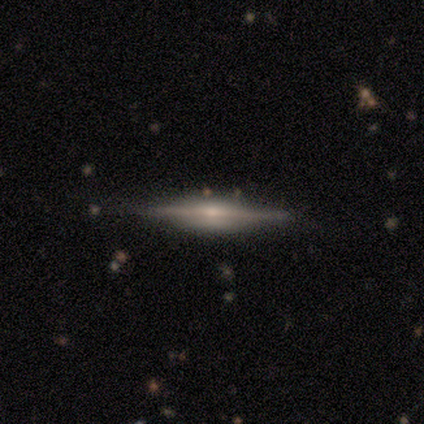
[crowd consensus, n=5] Smooth or featured? 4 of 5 (80%) said featured or disk. Edge-on disk? 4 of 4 (100%) said yes. Edge-on bulge? 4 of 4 (100%) said rounded. Merging? 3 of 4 (75%) said none.